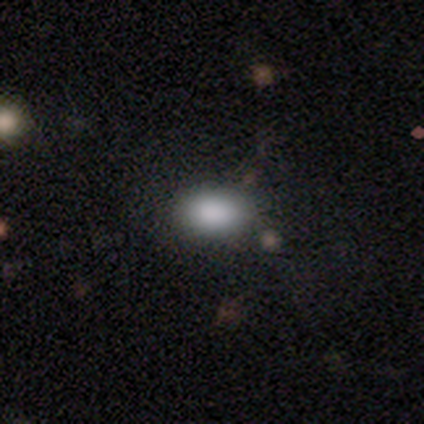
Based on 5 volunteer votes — Volunteers were most divided on "merging": none: 80%, minor disturbance: 20%, major disturbance: 0%, merger: 0%. More confident: smooth or featured — smooth (100%); how rounded — in between (100%).